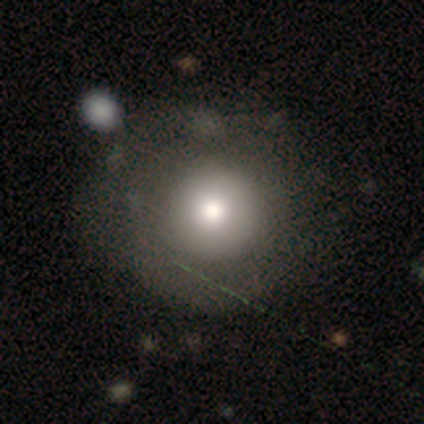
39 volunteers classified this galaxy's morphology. Overall: smooth (72%). How rounded: round (96%). Merging: none (53%; minor disturbance 15%).